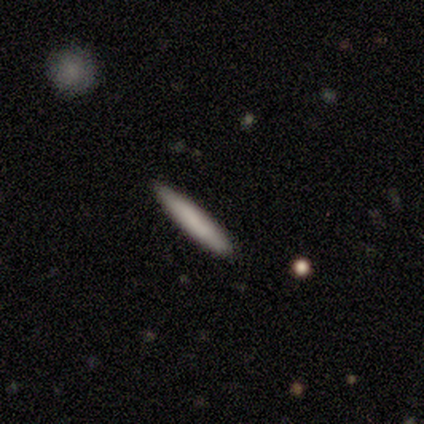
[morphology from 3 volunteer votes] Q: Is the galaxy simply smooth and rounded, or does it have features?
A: smooth — 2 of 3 (67%).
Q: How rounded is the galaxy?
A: cigar-shaped — 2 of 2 (100%).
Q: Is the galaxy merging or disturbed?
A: none — 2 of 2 (100%).